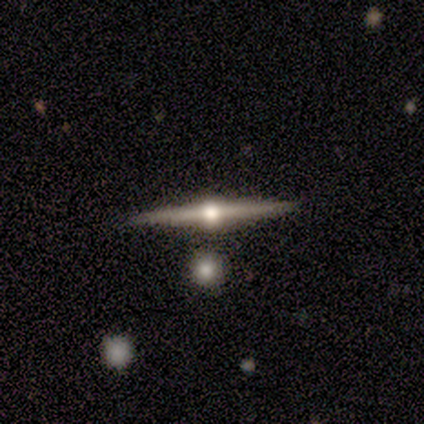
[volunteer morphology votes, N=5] type=featured or disk (100%); edge-on=yes (100%); edge-on bulge=rounded (100%); merging=none (80%).